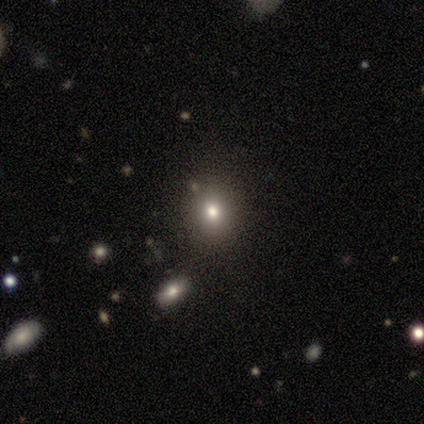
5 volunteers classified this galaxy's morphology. Smooth or featured? 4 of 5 (80%) said smooth. How rounded? 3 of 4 (75%) said round. Merging? 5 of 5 (100%) said none.